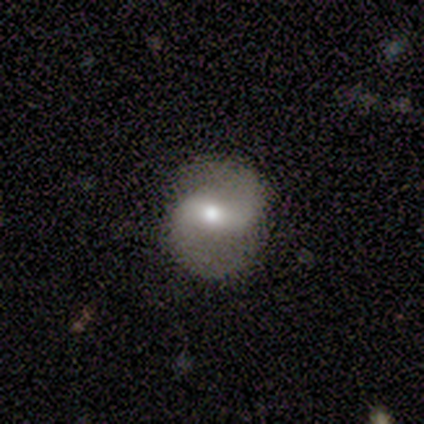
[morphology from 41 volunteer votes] type=featured or disk (90%); edge-on=no (97%); bar=strong (39%, tied with weak); spiral arms=yes (92%); winding=medium (55%); arm count=2 (91%); bulge=moderate (69%); merging=none (79%).